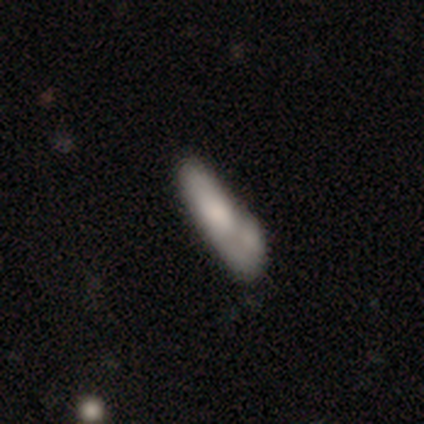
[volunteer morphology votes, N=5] smooth 80%, featured or disk 20%, star or artifact 0%. Down the decision tree: how rounded — cigar-shaped (75%); merging — none (80%).